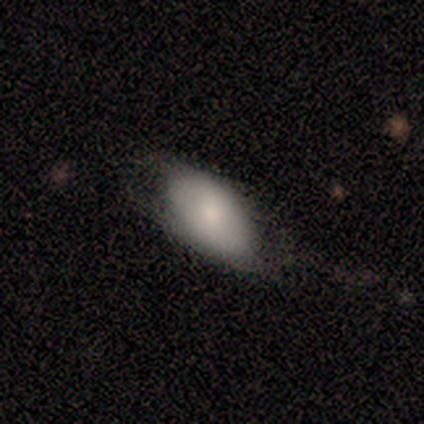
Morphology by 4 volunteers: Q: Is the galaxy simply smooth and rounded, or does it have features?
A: smooth — 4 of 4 (100%).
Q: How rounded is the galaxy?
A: in between — 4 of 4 (100%).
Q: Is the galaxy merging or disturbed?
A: none — 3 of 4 (75%).